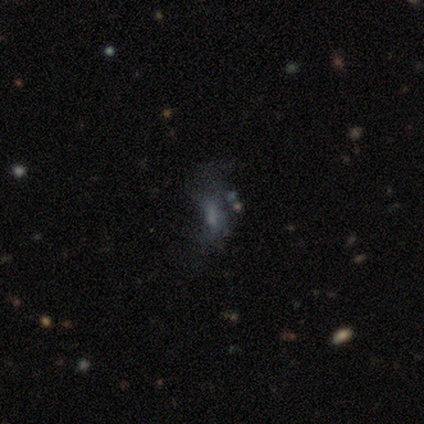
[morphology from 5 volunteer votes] This is likely a star or artifact rather than a galaxy (60%).